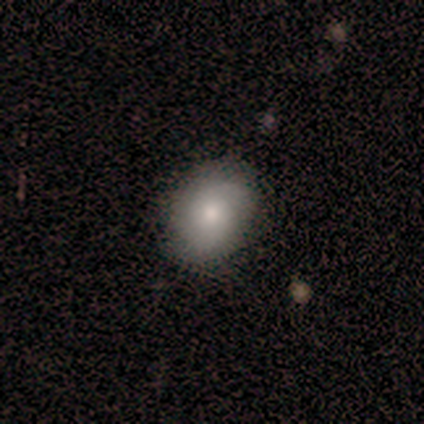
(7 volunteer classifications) Smooth or featured: smooth — 71% (featured or disk — 14%)
How rounded: round — 80% (in between — 20%)
Merging: none — 67% (minor disturbance — 17%)